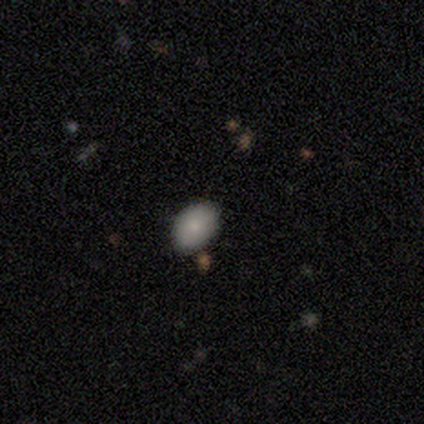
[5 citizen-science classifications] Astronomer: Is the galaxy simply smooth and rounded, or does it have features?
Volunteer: smooth — 80%.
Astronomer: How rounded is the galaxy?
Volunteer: in between — 75%.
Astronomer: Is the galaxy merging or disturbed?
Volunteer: none — 80%.